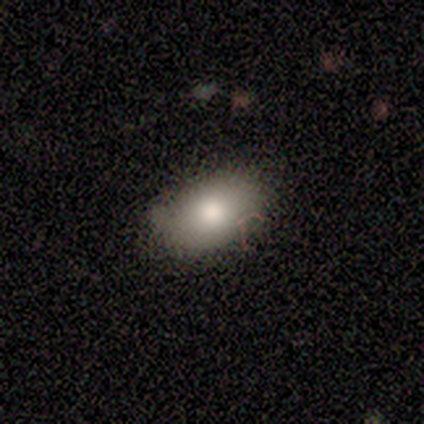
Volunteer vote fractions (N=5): A smooth galaxy with no disk features (100%) that is in between round and cigar-shaped (100%).

Vote fractions:
- Smooth or featured? smooth: 100% / featured or disk: 0% / star or artifact: 0%
- How rounded? in between: 100% / round: 0% / cigar-shaped: 0%
- Merging? none: 60% / minor disturbance: 40% / major disturbance: 0% / merger: 0%